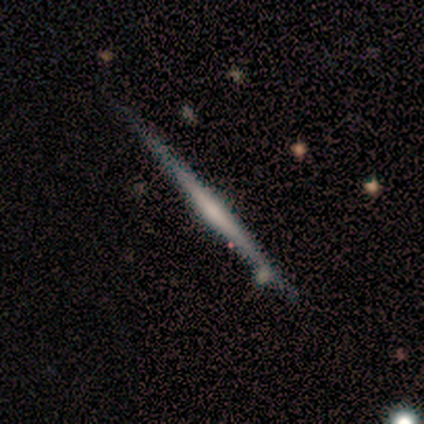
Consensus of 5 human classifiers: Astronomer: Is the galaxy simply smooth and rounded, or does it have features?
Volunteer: featured or disk — 100%.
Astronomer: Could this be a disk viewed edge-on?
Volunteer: yes — 100%.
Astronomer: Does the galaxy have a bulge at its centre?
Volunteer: none — 60% (runner-up: rounded, 40%).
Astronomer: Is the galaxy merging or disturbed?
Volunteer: none — 80%.